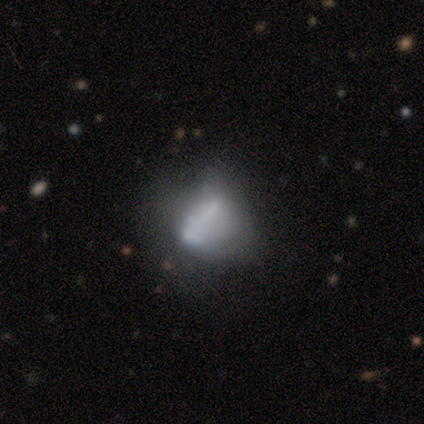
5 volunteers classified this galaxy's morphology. Smooth or featured: smooth — 60% (featured or disk — 20%)
How rounded: in between — 67% (round — 33%)
Merging: none — 50% (tied with major disturbance — 50%)